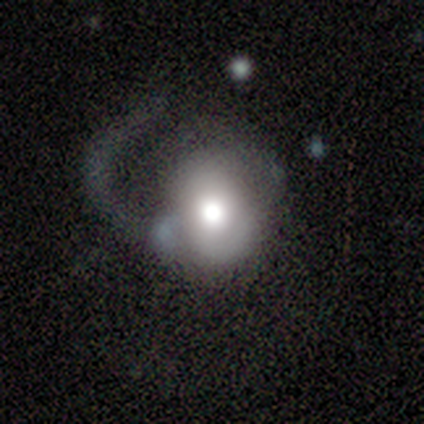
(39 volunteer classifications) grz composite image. It shows a smooth galaxy with no disk features (54%) that is round (62%). Merging: major disturbance (63%).